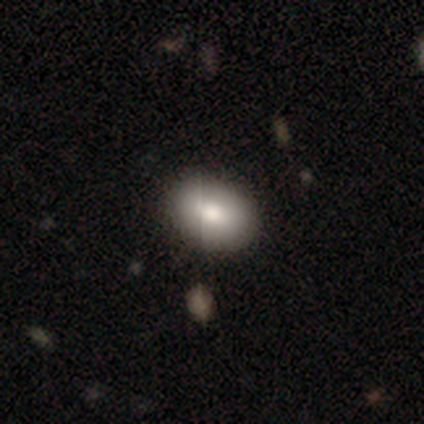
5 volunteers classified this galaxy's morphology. Smooth or featured: smooth — 100%
How rounded: in between — 100%
Merging: none — 60% (major disturbance — 20%)